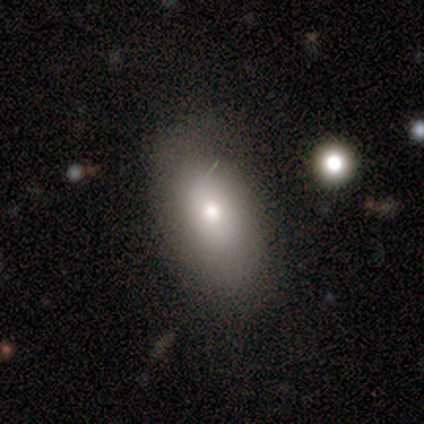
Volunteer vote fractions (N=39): Smooth or featured? smooth (77%)
How rounded? in between (97%)
Merging? none (64%)